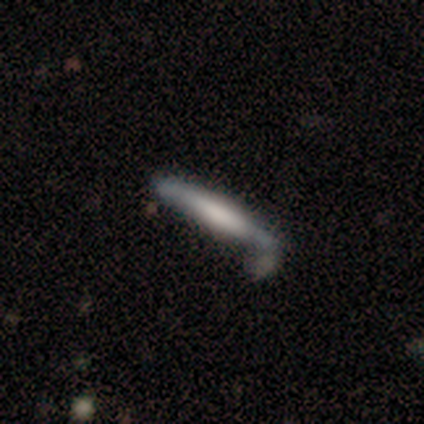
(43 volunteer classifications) Smooth or featured?
  - smooth: 58% *
  - featured or disk: 37%
  - star or artifact: 5%
How rounded?
  - cigar-shaped: 100% *
  - round: 0%
  - in between: 0%
Merging?
  - none: 51% *
  - minor disturbance: 29%
  - major disturbance: 12%
  - merger: 7%